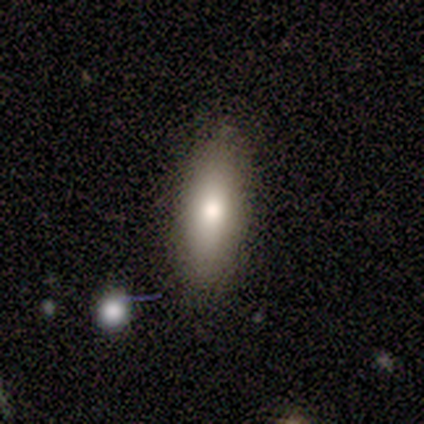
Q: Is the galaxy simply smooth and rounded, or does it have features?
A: smooth — 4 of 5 (80%).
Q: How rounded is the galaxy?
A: in between — 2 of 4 (50%, tied with cigar-shaped).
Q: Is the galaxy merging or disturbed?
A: none — 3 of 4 (75%).